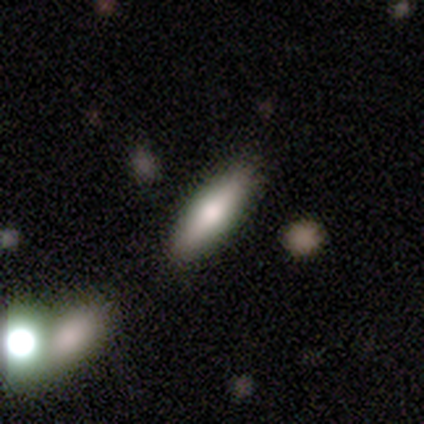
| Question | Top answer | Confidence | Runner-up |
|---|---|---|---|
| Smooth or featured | smooth | 79% | featured or disk (15%) |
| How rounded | cigar-shaped | 55% | in between (45%) |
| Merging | none | 86% | major disturbance (5%) |